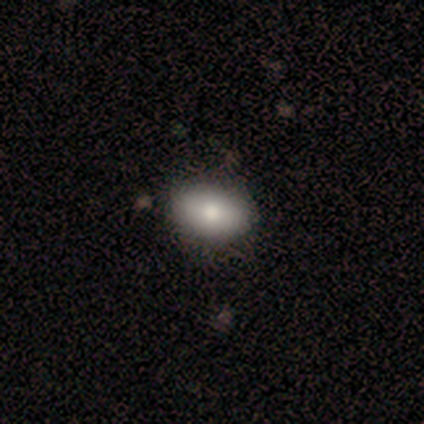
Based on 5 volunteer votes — Q: Smooth or featured?
A: smooth (100%)
Q: How rounded?
A: in between (100%)
Q: Merging?
A: none (100%)